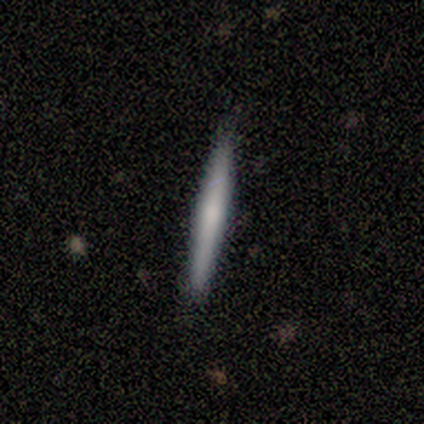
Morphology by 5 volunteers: Q: Smooth or featured?
A: smooth (60%); runner-up: featured or disk (40%)
Q: How rounded?
A: cigar-shaped (100%)
Q: Merging?
A: none (80%); runner-up: minor disturbance (20%)